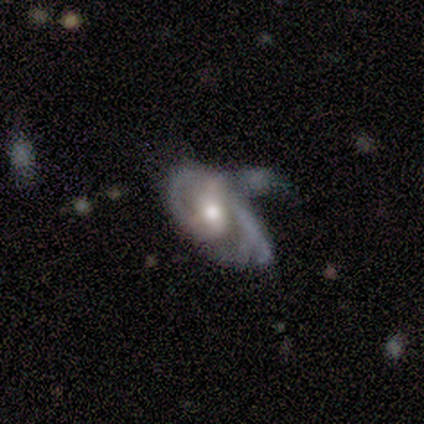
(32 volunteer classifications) smooth_or_featured: featured or disk (p=0.75) [alt: smooth p=0.12]
disk_edge_on: no (p=0.96) [alt: yes p=0.04]
bar: no (p=0.52) [alt: weak p=0.35]
has_spiral_arms: yes (p=0.70) [alt: no p=0.30]
spiral_winding: tight (p=0.44) [alt: medium p=0.38]
spiral_arm_count: 2 (p=0.50) [alt: can't tell p=0.25]
bulge_size: moderate (p=0.57) [alt: large p=0.22]
merging: major disturbance (p=0.43) [alt: minor disturbance p=0.29]